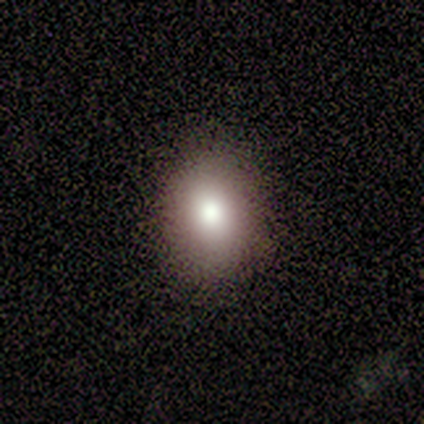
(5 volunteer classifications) smooth-or-featured: smooth: 100% | featured or disk: 0% | star or artifact: 0%
  how-rounded: round: 60% | in between: 40% | cigar-shaped: 0%
  merging: none: 80% | minor disturbance: 20% | major disturbance: 0% | merger: 0%